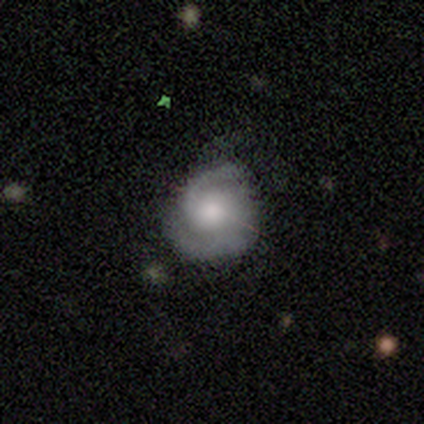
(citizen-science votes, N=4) Morphology: type=smooth (50%, tied with featured or disk); roundness=in between (100%); merging=none (50%, tied with minor disturbance).